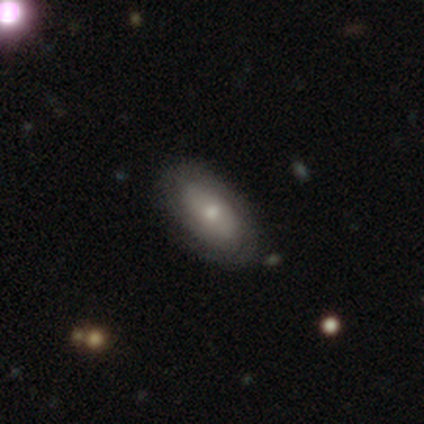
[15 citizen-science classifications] A featured or disk galaxy (53%) with no bar (88%), 2 (40%) tight (60%) spiral arms (62%) and a small central bulge (62%).

Vote fractions:
- Smooth or featured? featured or disk: 53% / smooth: 47% / star or artifact: 0%
- Edge-on disk? no: 100% / yes: 0%
- Bar? no: 88% / strong: 12% / weak: 0%
- Spiral arms? yes: 62% / no: 38%
- Spiral winding? tight: 60% / medium: 40% / loose: 0%
- Spiral arm count? 2: 40% / 1: 20% / 4: 20% / can't tell: 20% / 3: 0% / more than 4: 0%
- Bulge size? small: 62% / moderate: 38% / dominant: 0% / large: 0% / none: 0%
- Merging? none: 73% / minor disturbance: 13% / major disturbance: 7% / merger: 7%